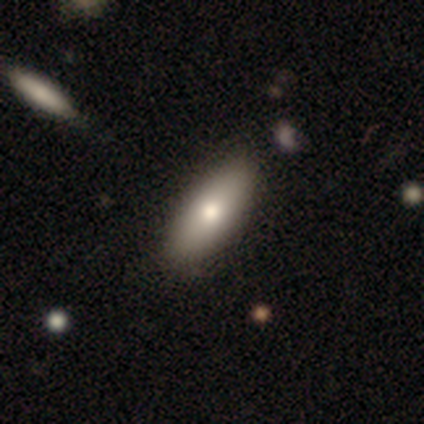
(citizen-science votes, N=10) Overall: smooth (90%). How rounded: in between (78%). Merging: none (70%; minor disturbance 30%).